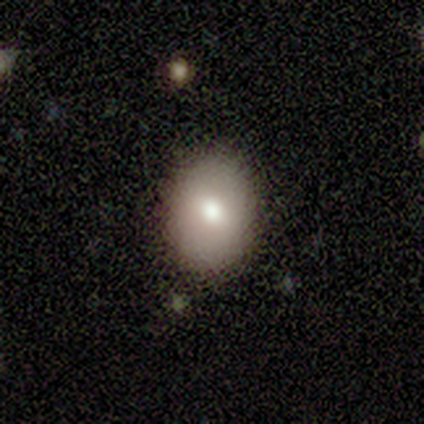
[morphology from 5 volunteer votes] smooth_or_featured: smooth (p=0.80) [alt: featured or disk p=0.20]
how_rounded: in between (p=0.75) [alt: round p=0.25]
merging: none (p=0.80) [alt: minor disturbance p=0.20]